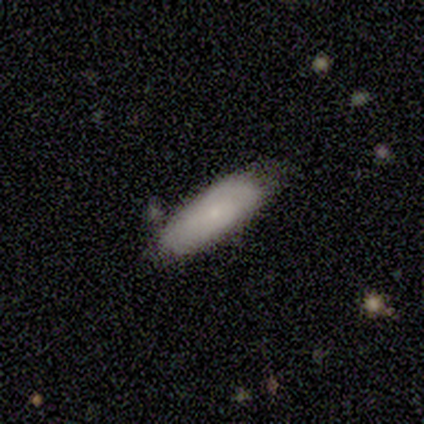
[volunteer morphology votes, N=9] Volunteers were most divided on "how rounded" (2-way tie): in between: 50%, cigar-shaped: 50%, round: 0%. More confident: smooth or featured — smooth (89%); merging — none (89%).